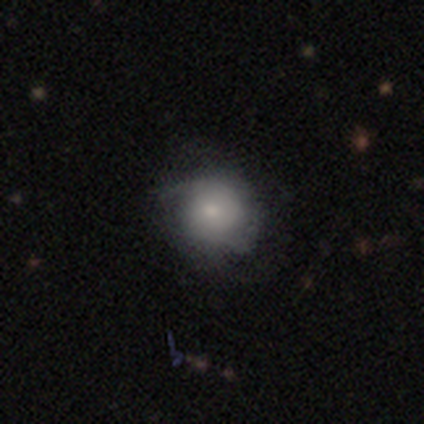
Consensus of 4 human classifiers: Smooth or featured?
  - smooth: 50% * (tied)
  - featured or disk: 50% * (tied)
  - star or artifact: 0%
How rounded?
  - round: 100% *
  - in between: 0%
  - cigar-shaped: 0%
Merging?
  - minor disturbance: 75% *
  - none: 25%
  - major disturbance: 0%
  - merger: 0%